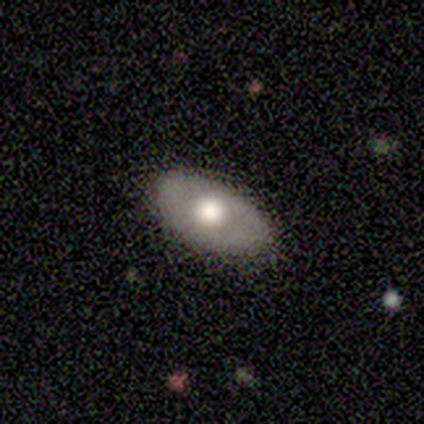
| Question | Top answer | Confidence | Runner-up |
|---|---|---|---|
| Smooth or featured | smooth | 60% | featured or disk (40%) |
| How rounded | in between | 100% | — |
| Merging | none | 100% | — |